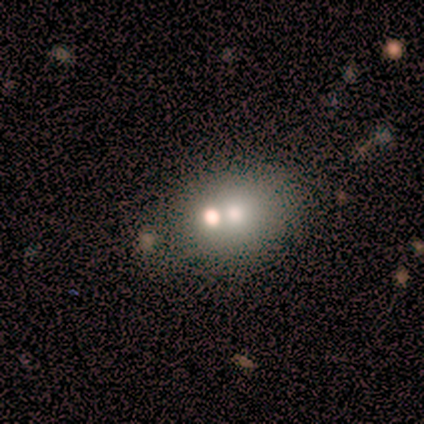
Smooth or featured?
  - smooth: 80% *
  - featured or disk: 20%
  - star or artifact: 0%
How rounded?
  - in between: 75% *
  - round: 25%
  - cigar-shaped: 0%
Merging?
  - none: 40% * (tied)
  - merger: 40% * (tied)
  - minor disturbance: 20%
  - major disturbance: 0%